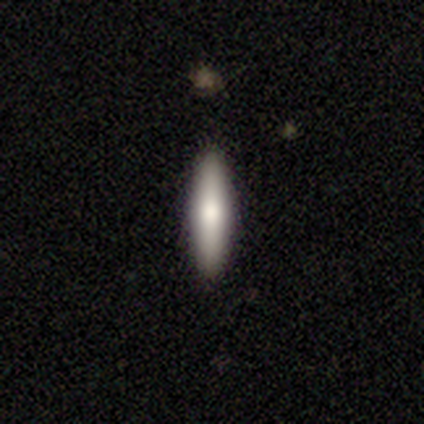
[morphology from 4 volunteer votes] Smooth or featured? 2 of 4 (50%, tied with featured or disk) said smooth. How rounded? 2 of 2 (100%) said cigar-shaped. Merging? 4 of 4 (100%) said none.